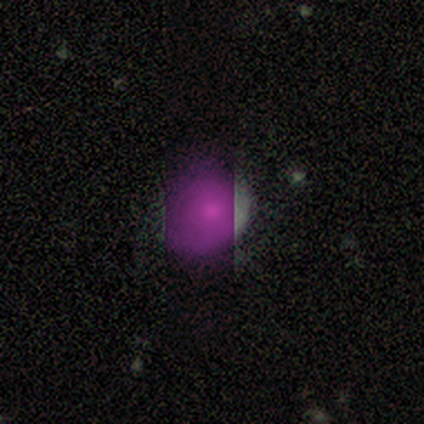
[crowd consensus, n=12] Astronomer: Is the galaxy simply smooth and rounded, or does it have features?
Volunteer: smooth — 50%.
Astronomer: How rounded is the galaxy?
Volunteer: round — 67%.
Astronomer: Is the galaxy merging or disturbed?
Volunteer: none — 78%.